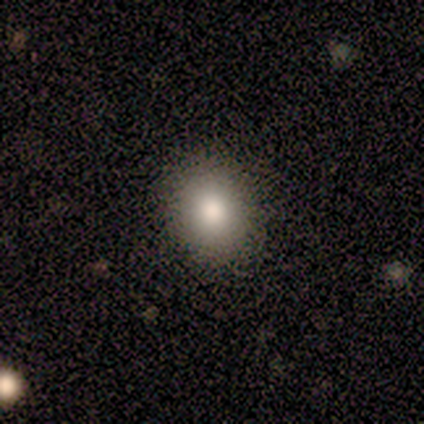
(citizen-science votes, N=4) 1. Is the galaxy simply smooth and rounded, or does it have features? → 75% smooth, 25% featured or disk, 0% star or artifact.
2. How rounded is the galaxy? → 67% in between, 33% round, 0% cigar-shaped.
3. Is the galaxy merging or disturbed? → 75% none, 25% minor disturbance, 0% major disturbance, 0% merger.